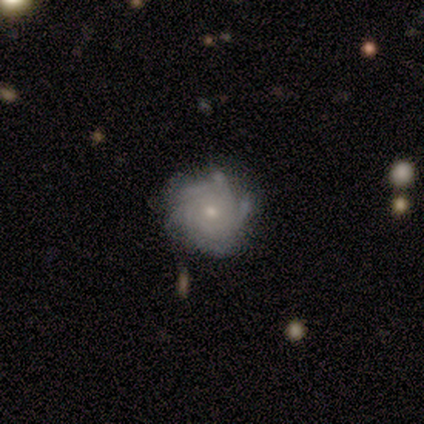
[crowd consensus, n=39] Smooth or featured?
  - featured or disk: 92% *
  - smooth: 5%
  - star or artifact: 3%
Edge-on disk?
  - no: 100% *
  - yes: 0%
Bar?
  - no: 75% *
  - weak: 14%
  - strong: 11%
Spiral arms?
  - yes: 100% *
  - no: 0%
Spiral winding?
  - tight: 75% *
  - medium: 25%
  - loose: 0%
Spiral arm count?
  - more than 4: 36% *
  - 4: 25%
  - can't tell: 22%
  - 3: 14%
  - 2: 3%
  - 1: 0%
Bulge size?
  - small: 56% *
  - moderate: 36%
  - none: 6%
  - dominant: 3%
  - large: 0%
Merging?
  - none: 82% *
  - minor disturbance: 16%
  - major disturbance: 3%
  - merger: 0%